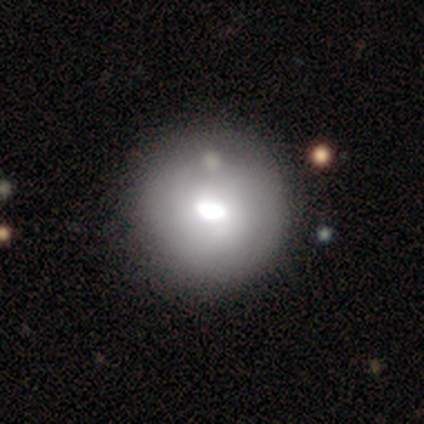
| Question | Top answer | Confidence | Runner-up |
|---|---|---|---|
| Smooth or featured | smooth | 80% | star or artifact (20%) |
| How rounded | round | 75% | cigar-shaped (25%) |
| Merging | none | 50% | major disturbance (25%) |